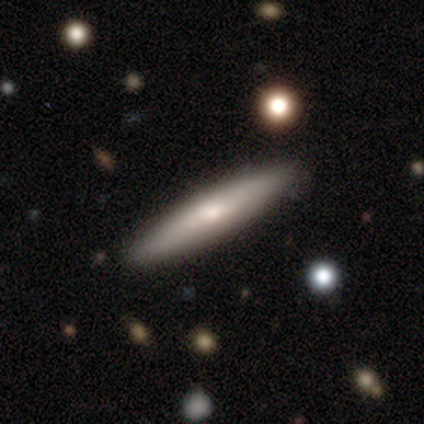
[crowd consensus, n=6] A featured or disk galaxy (67%) viewed edge-on (100%) with no central bulge (50%, tied with rounded). Merging: none (100%).